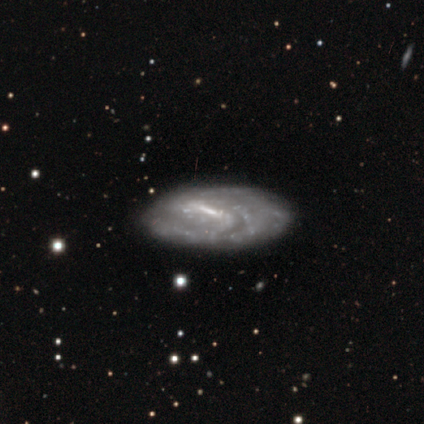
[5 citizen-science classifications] Smooth or featured?
  - featured or disk: 80% *
  - star or artifact: 20%
  - smooth: 0%
Edge-on disk?
  - no: 100% *
  - yes: 0%
Bar?
  - strong: 75% *
  - weak: 25%
  - no: 0%
Spiral arms?
  - yes: 75% *
  - no: 25%
Spiral winding?
  - tight: 33% * (tied)
  - medium: 33% * (tied)
  - loose: 33% * (tied)
Spiral arm count?
  - can't tell: 100% *
  - 1: 0%
  - 2: 0%
  - 3: 0%
  - 4: 0%
  - more than 4: 0%
Bulge size?
  - small: 50% *
  - large: 25%
  - none: 25%
  - dominant: 0%
  - moderate: 0%
Merging?
  - none: 50% *
  - minor disturbance: 25%
  - major disturbance: 25%
  - merger: 0%